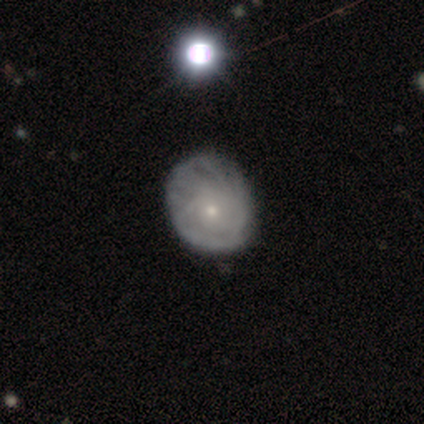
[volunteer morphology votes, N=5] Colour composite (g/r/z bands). It shows a featured or disk galaxy (60%) with no bar (67%), 4 (33%, tied with more than 4 and can't tell) tight (100%) spiral arms (100%) and a small central bulge (100%). Merging: none (80%).